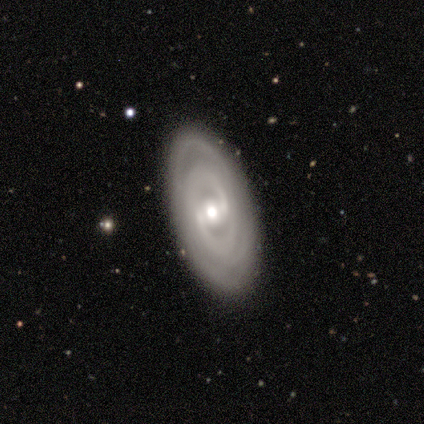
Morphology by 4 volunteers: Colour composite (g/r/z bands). It shows a featured or disk galaxy (100%) with a strong bar (50%, tied with no), 2 (50%, tied with can't tell) tight (75%) spiral arms (100%) and a moderate central bulge (100%). Merging: none (100%).